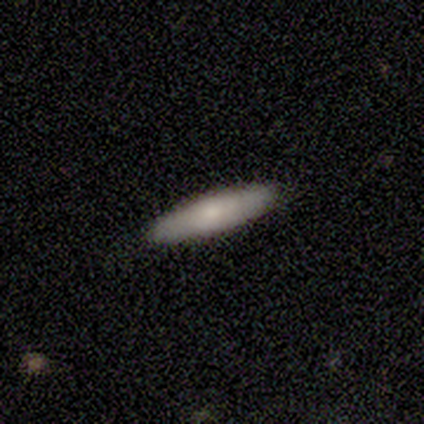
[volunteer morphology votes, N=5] This appears to be a smooth galaxy with no disk features (80%) that is cigar-shaped (75%). Merging: none (100%).